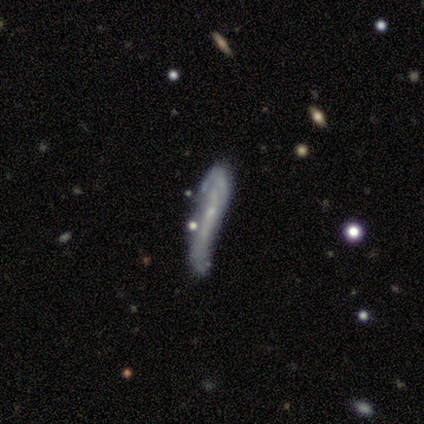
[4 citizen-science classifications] Smooth or featured: smooth — 50% (tied with featured or disk — 50%)
How rounded: cigar-shaped — 100%
Merging: none — 50% (minor disturbance — 25%)